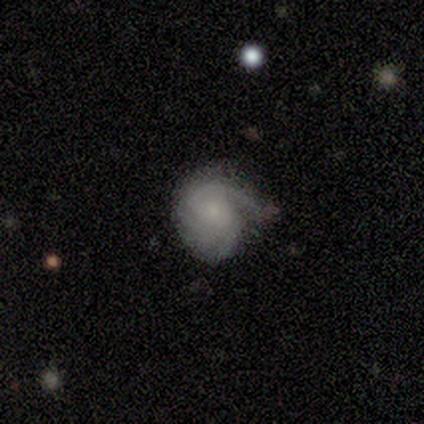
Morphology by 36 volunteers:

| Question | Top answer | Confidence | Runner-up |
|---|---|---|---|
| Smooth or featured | featured or disk | 67% | smooth (31%) |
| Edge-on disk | no | 100% | — |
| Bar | no | 83% | weak (17%) |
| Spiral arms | yes | 100% | — |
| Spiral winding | tight | 46% | tied: medium (46%) |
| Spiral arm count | can't tell | 46% | 3 (21%) |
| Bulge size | small | 62% | none (25%) |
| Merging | none | 54% | minor disturbance (40%) |